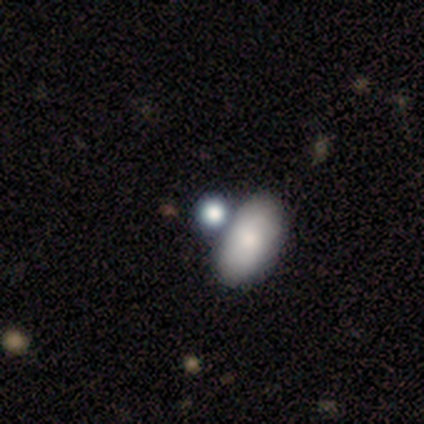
Smooth or featured?
  - smooth: 100% *
  - featured or disk: 0%
  - star or artifact: 0%
How rounded?
  - in between: 60% *
  - round: 40%
  - cigar-shaped: 0%
Merging?
  - none: 80% *
  - merger: 20%
  - minor disturbance: 0%
  - major disturbance: 0%